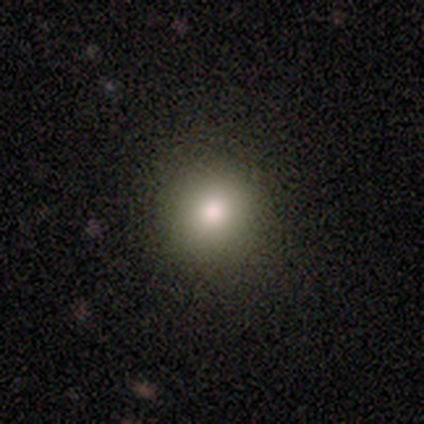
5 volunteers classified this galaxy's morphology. This appears to be a smooth galaxy with no disk features (80%) that is round (100%). Merging: none (100%).